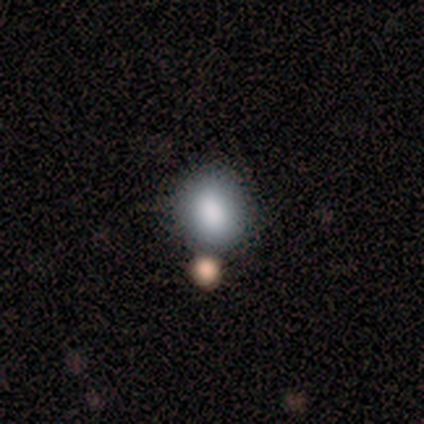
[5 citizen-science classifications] A smooth galaxy with no disk features (80%) that is round (50%, tied with in between). Merging: none (75%).